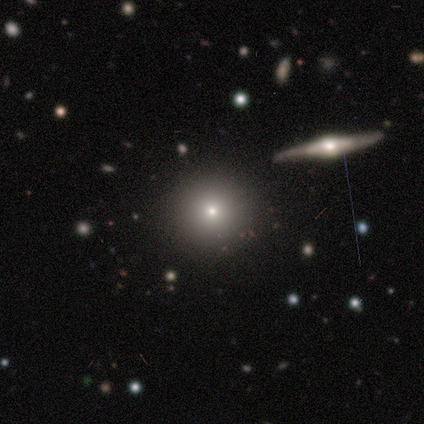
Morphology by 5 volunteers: A smooth galaxy with no disk features (100%) that is round (100%). Merging: none (80%).